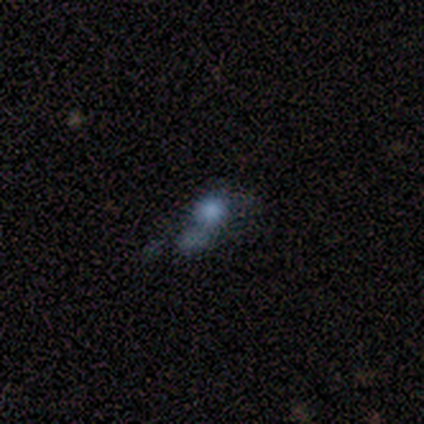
A smooth galaxy with no disk features (75%) that is round (100%).

Vote fractions:
- Smooth or featured? smooth: 75% / featured or disk: 25% / star or artifact: 0%
- How rounded? round: 100% / in between: 0% / cigar-shaped: 0%
- Merging? none: 25% (tied) / minor disturbance: 25% (tied) / major disturbance: 25% (tied) / merger: 25% (tied)